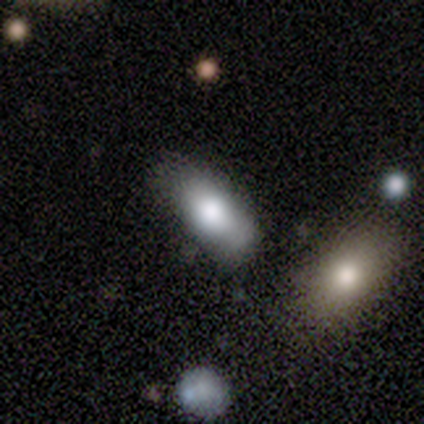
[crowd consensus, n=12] A smooth galaxy with no disk features (83%) that is in between round and cigar-shaped (100%). Merging: none (82%).